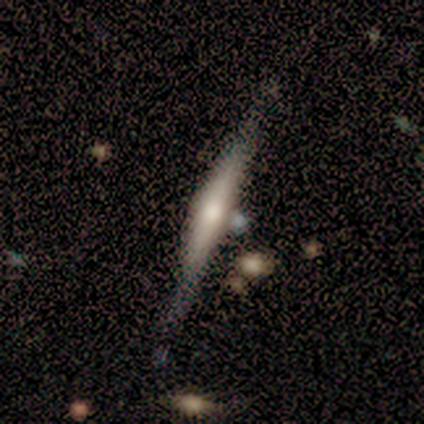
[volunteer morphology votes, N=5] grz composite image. It shows a smooth galaxy with no disk features (40%, tied with featured or disk) that is cigar-shaped (100%). Merging: none (100%).